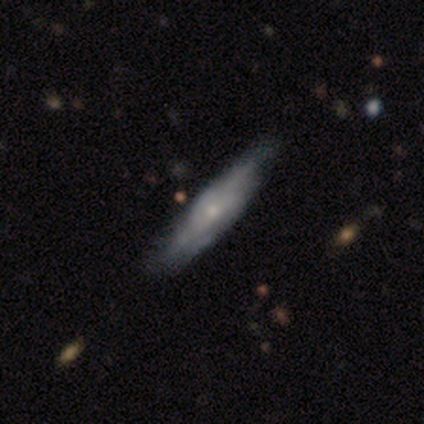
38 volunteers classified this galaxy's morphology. smooth-or-featured: featured or disk: 76% | smooth: 21% | star or artifact: 3%
  disk-edge-on: no: 52% | yes: 48%
    bar: no: 93% | weak: 7% | strong: 0%
    has-spiral-arms: yes: 53% | no: 47%
      spiral-winding: medium: 62% | tight: 38% | loose: 0%
      spiral-arm-count: can't tell: 62% | 2: 25% | 3: 12% | 1: 0% | 4: 0% | more than 4: 0%
    bulge-size: small: 67% | moderate: 20% | none: 13% | dominant: 0% | large: 0%
  merging: none: 38% | minor disturbance: 32% | merger: 3% | major disturbance: 0%